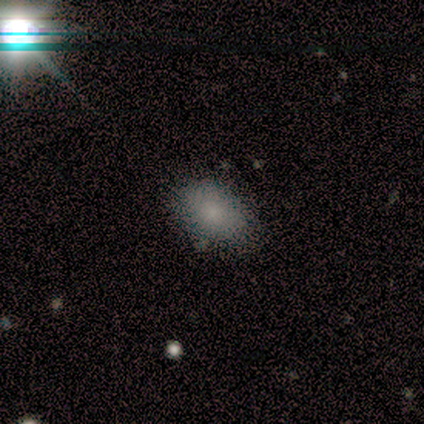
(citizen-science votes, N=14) smooth-or-featured: smooth: 64% | star or artifact: 29% | featured or disk: 7%
  how-rounded: in between: 78% | round: 22% | cigar-shaped: 0%
  merging: none: 80% | minor disturbance: 20% | major disturbance: 0% | merger: 0%